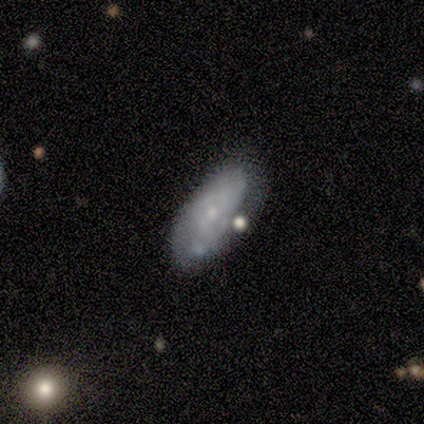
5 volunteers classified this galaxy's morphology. Q: Smooth or featured?
A: featured or disk (60%); runner-up: smooth (40%)
Q: Edge-on disk?
A: no (100%)
Q: Bar?
A: no (67%); runner-up: weak (33%)
Q: Spiral arms?
A: no (67%); runner-up: yes (33%)
Q: Bulge size?
A: small (100%)
Q: Merging?
A: minor disturbance (40%); runner-up: none (20%)